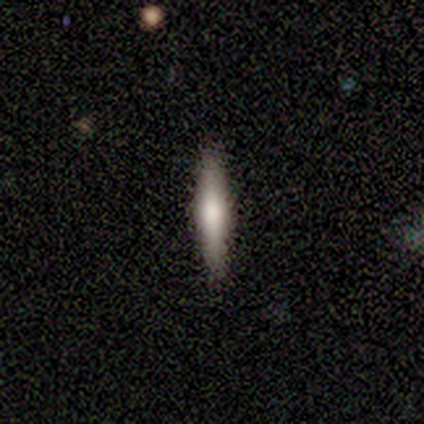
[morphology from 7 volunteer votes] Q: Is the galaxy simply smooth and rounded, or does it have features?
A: smooth — 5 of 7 (71%).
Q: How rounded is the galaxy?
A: cigar-shaped — 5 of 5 (100%).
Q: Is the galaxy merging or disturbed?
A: none — 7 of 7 (100%).